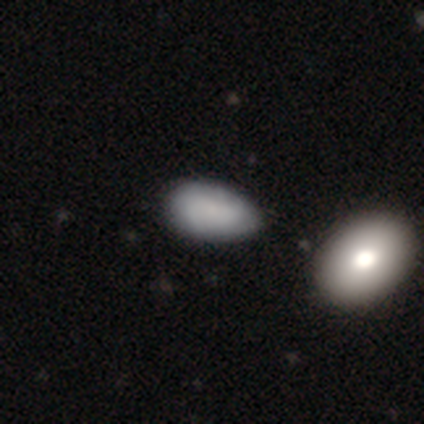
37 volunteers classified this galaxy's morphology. This is likely a smooth galaxy (68%). How rounded: clearly in between (96%). Merging: marginally minor disturbance (31%).